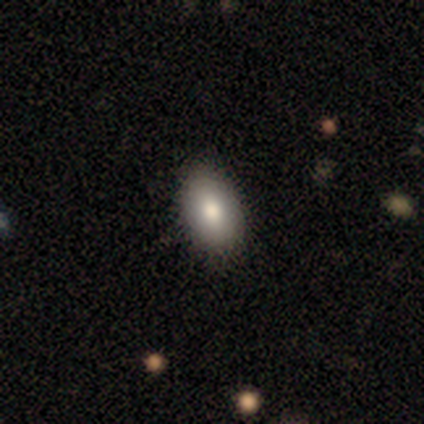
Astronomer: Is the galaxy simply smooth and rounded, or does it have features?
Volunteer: smooth — 100%.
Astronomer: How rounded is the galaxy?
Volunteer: in between — 100%.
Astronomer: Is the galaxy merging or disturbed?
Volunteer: none — 100%.